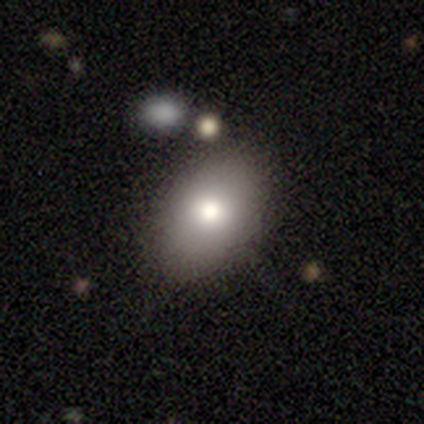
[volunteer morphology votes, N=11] A smooth galaxy with no disk features (82%) that is in between round and cigar-shaped (78%).

Vote fractions:
- Smooth or featured? smooth: 82% / featured or disk: 18% / star or artifact: 0%
- How rounded? in between: 78% / round: 22% / cigar-shaped: 0%
- Merging? none: 82% / minor disturbance: 18% / major disturbance: 0% / merger: 0%